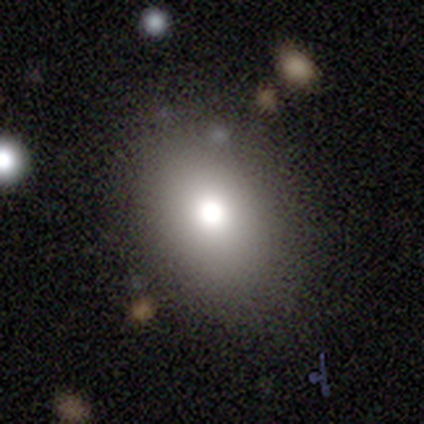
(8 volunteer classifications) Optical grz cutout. It shows a smooth galaxy with no disk features (75%) that is round (50%, tied with in between). Merging: none (100%).